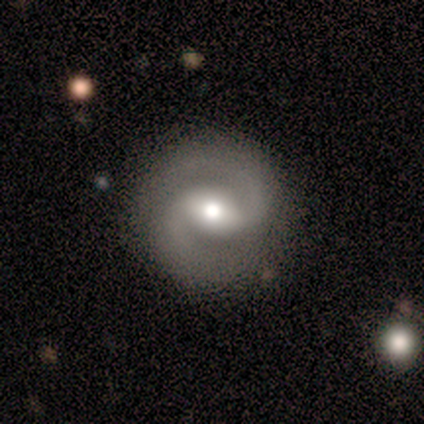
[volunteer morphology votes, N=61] featured or disk 82%, star or artifact 11%, smooth 7%. Down the decision tree: edge-on disk — no (100%); bar — weak (52%); spiral arms — yes (98%); spiral arm count — 2 (94%); spiral winding — medium (61%); bulge size — moderate (66%); merging — none (87%).